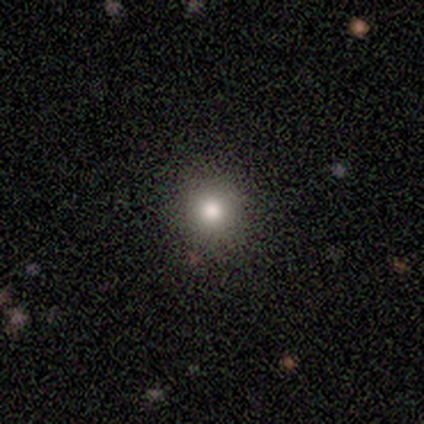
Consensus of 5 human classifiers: Overall: smooth (60%; star or artifact 40%). How rounded: round (100%). Merging: none (100%).